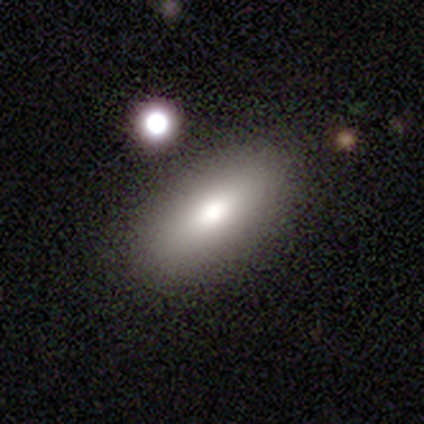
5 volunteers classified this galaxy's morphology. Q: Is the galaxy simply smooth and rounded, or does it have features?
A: smooth — 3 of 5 (60%).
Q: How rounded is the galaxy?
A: in between — 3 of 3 (100%).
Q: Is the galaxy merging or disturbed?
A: none — 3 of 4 (75%).